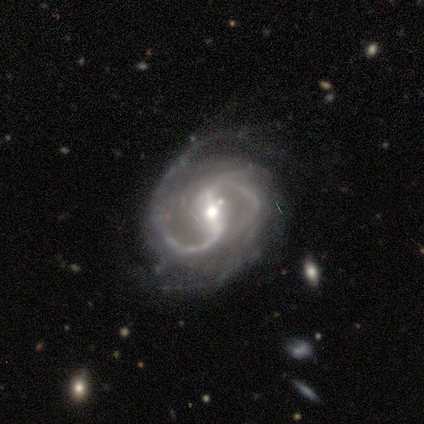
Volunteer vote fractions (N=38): smooth-or-featured: featured or disk: 100% | smooth: 0% | star or artifact: 0%
  disk-edge-on: no: 97% | yes: 3%
    bar: strong: 62% | weak: 30% | no: 8%
    has-spiral-arms: yes: 97% | no: 3%
      spiral-winding: medium: 64% | loose: 19% | tight: 17%
      spiral-arm-count: 2: 86% | 3: 6% | can't tell: 6% | more than 4: 3% | 1: 0% | 4: 0%
    bulge-size: moderate: 62% | small: 24% | large: 8% | none: 5% | dominant: 0%
  merging: none: 74% | minor disturbance: 21% | major disturbance: 5% | merger: 0%